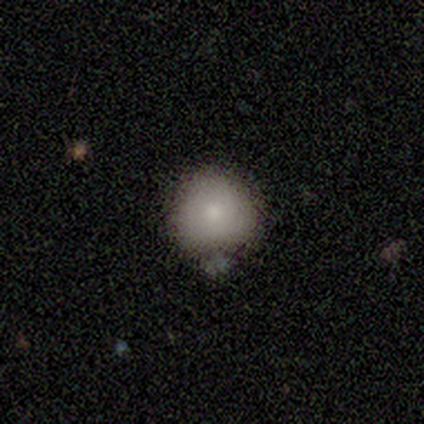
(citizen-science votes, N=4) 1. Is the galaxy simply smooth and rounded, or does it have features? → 100% smooth, 0% featured or disk, 0% star or artifact.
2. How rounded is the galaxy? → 75% round, 25% in between, 0% cigar-shaped.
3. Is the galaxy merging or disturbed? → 75% none, 25% minor disturbance, 0% major disturbance, 0% merger.